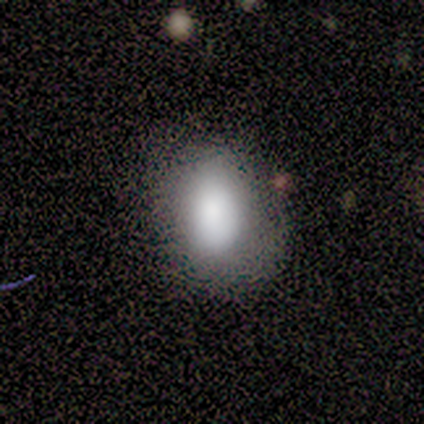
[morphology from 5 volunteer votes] Smooth or featured? smooth (80%)
How rounded? in between (100%)
Merging? none (75%)